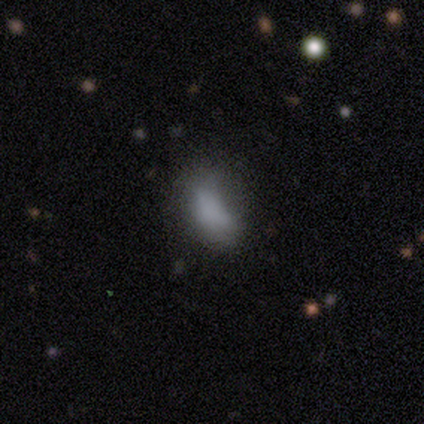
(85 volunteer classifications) Morphology: type=smooth (68%); roundness=in between (91%); merging=none (48%).